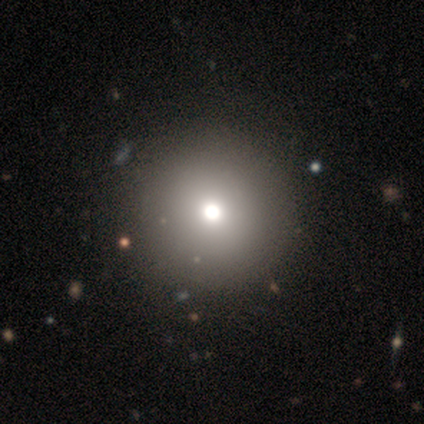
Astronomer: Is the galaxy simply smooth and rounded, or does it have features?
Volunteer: smooth — 70%.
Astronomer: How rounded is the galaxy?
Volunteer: round — 96%.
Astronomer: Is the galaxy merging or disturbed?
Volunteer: none — 83%.